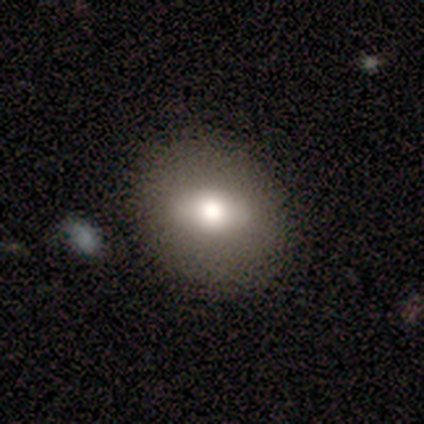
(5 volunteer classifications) Smooth or featured? 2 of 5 (40%, tied with featured or disk) said smooth. How rounded? 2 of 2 (100%) said in between. Merging? 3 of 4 (75%) said none.